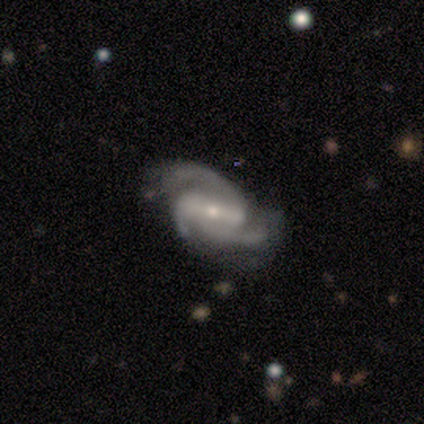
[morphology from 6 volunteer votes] Overall: featured or disk (100%). Edge-on disk: no (100%). Bar: strong (83%). Spiral arms: yes (100%). Spiral arm count: 2 (50%, tied with 3). Spiral winding: medium (67%; tight 33%). Bulge size: small (67%; moderate 33%). Merging: minor disturbance (67%; none 33%).